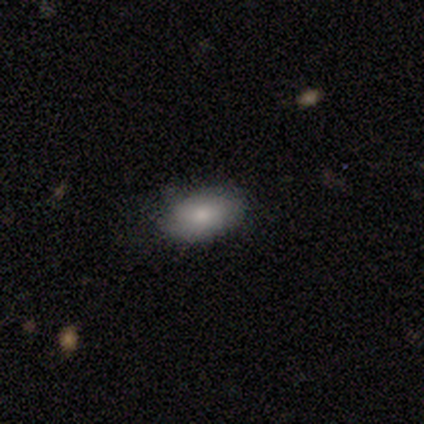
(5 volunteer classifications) smooth 60%, star or artifact 40%, featured or disk 0%. Down the decision tree: how rounded — in between (100%); merging — none (100%).